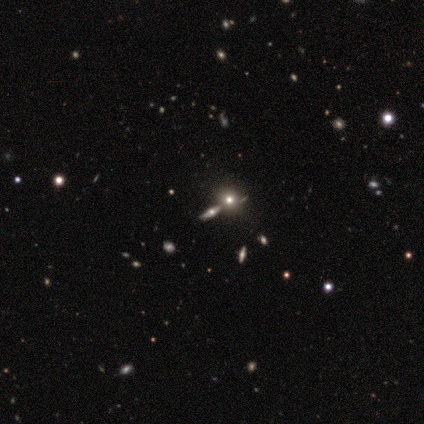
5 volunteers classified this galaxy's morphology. Overall: featured or disk (40%, tied with star or artifact). Edge-on disk: yes (100%). Edge-on bulge: rounded (100%). Merging: none (67%; merger 33%).